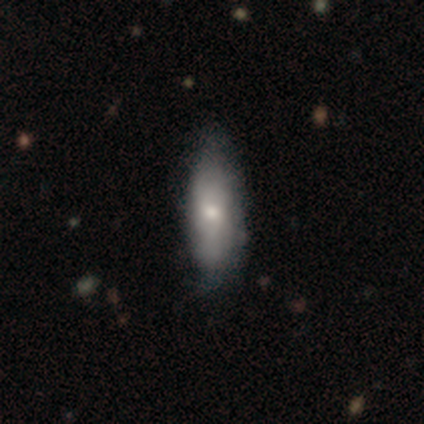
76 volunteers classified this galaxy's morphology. Smooth or featured: smooth — 54% (featured or disk — 43%)
How rounded: in between — 63% (cigar-shaped — 34%)
Merging: none — 34% (minor disturbance — 15%)